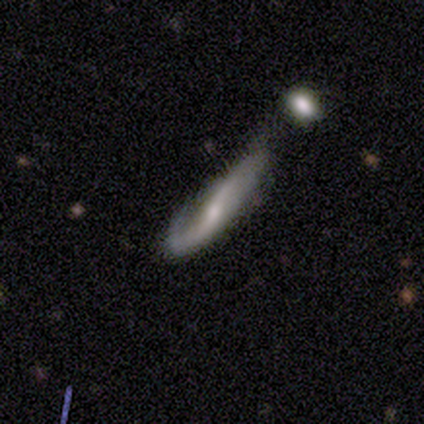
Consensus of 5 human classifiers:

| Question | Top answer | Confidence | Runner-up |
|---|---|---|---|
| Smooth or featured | featured or disk | 80% | smooth (20%) |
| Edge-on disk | yes | 75% | no (25%) |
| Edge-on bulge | boxy | 33% | tied: none (33%), rounded (33%) |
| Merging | major disturbance | 40% | none (20%) |